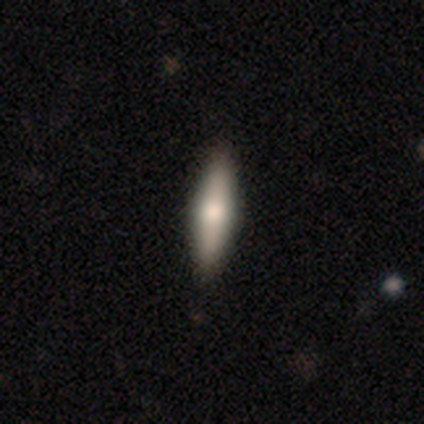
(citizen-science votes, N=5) smooth 80%, featured or disk 20%, star or artifact 0%. Down the decision tree: how rounded — cigar-shaped (75%); merging — none (100%).